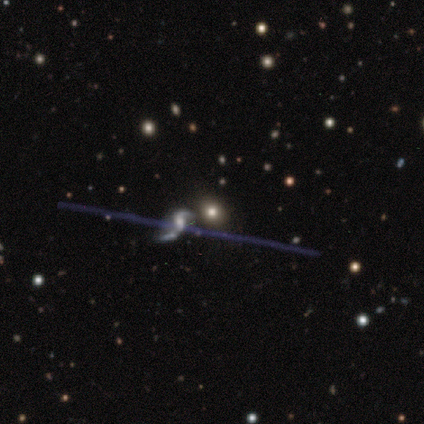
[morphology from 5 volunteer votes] smooth_or_featured: star or artifact (p=0.60) [alt: featured or disk p=0.40]